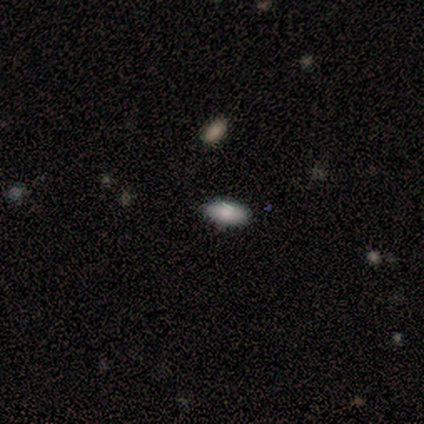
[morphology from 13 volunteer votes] Smooth or featured? 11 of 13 (85%) said smooth. How rounded? 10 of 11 (91%) said in between. Merging? 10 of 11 (91%) said none.